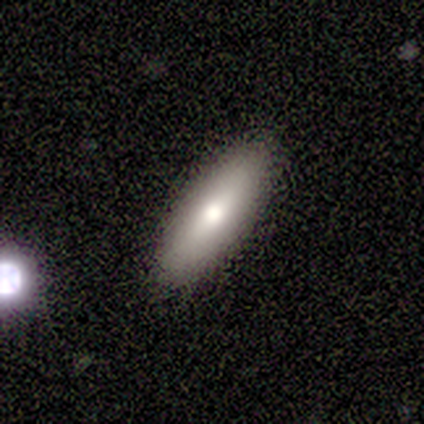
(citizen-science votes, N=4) This appears to be a smooth galaxy with no disk features (50%, tied with featured or disk) that is in between round and cigar-shaped (100%). Merging: none (75%).